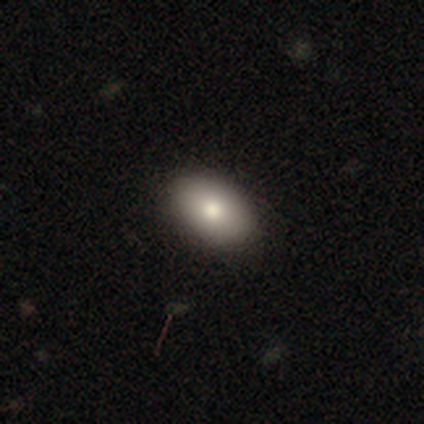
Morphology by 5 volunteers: A smooth galaxy with no disk features (80%) that is in between round and cigar-shaped (100%).

Vote fractions:
- Smooth or featured? smooth: 80% / featured or disk: 20% / star or artifact: 0%
- How rounded? in between: 100% / round: 0% / cigar-shaped: 0%
- Merging? none: 100% / minor disturbance: 0% / major disturbance: 0% / merger: 0%